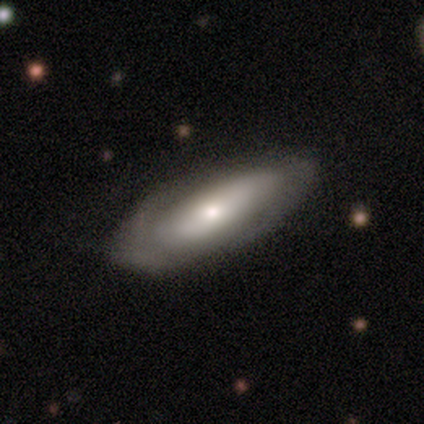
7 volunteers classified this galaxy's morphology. type=featured or disk (57%); edge-on=no (100%); bar=weak (50%, tied with no); spiral arms=no (75%); bulge=small (75%); merging=none (83%).